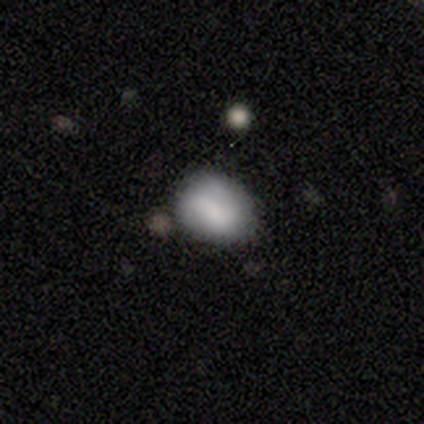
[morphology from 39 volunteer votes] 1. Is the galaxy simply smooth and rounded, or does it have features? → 82% smooth, 18% featured or disk, 0% star or artifact.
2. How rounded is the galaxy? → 69% in between, 28% round, 3% cigar-shaped.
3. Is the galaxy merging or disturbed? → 56% none, 13% minor disturbance, 5% merger, 0% major disturbance.